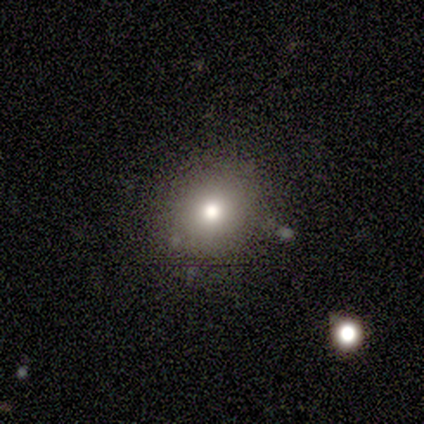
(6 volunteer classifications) Smooth or featured: smooth — 100%
How rounded: round — 83% (in between — 17%)
Merging: none — 83% (minor disturbance — 17%)